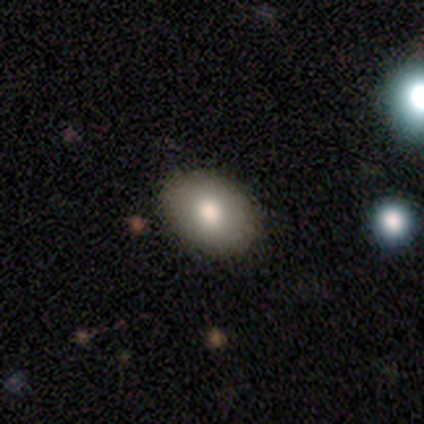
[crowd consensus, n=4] Smooth or featured? 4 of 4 (100%) said smooth. How rounded? 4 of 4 (100%) said in between. Merging? 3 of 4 (75%) said none.